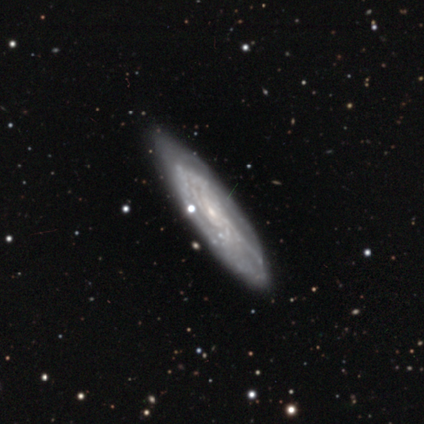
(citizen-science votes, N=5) A featured or disk galaxy (100%) viewed edge-on (60%) with a rounded central bulge (67%).

Vote fractions:
- Smooth or featured? featured or disk: 100% / smooth: 0% / star or artifact: 0%
- Edge-on disk? yes: 60% / no: 40%
- Edge-on bulge? rounded: 67% / none: 33% / boxy: 0%
- Merging? none: 80% / minor disturbance: 20% / major disturbance: 0% / merger: 0%